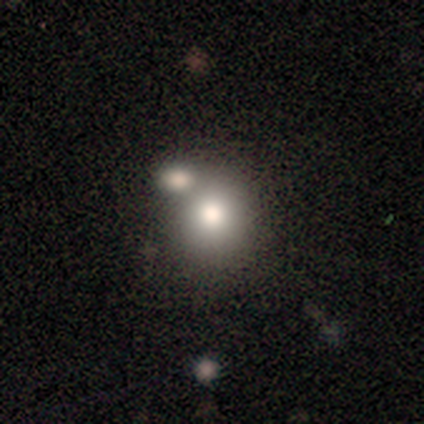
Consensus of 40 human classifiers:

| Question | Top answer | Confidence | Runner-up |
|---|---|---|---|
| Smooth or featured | smooth | 88% | featured or disk (8%) |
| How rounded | round | 91% | in between (9%) |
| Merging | none | 55% | merger (37%) |